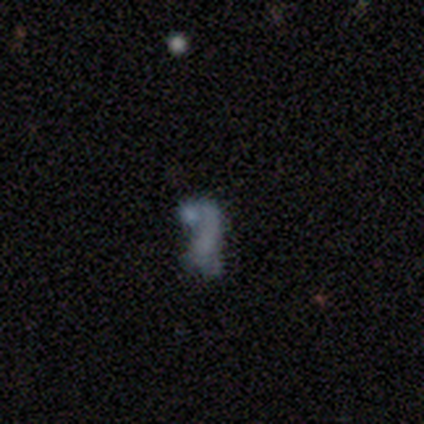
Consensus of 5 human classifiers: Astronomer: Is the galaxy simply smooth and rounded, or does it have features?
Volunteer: featured or disk — 60% (runner-up: star or artifact, 40%).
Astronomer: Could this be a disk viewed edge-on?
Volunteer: no — 67%.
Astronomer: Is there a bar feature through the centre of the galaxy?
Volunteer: no — 100%.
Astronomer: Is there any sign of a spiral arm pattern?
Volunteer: no — 100%.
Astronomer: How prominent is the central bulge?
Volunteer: none — 100%.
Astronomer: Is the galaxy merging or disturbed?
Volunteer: none — 67%.